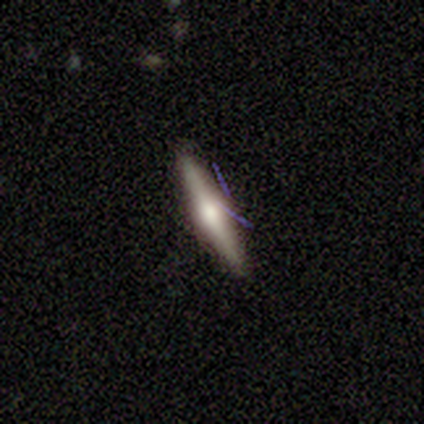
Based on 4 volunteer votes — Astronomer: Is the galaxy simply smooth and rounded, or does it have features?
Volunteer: featured or disk — 75%.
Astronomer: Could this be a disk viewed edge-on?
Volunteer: yes — 100%.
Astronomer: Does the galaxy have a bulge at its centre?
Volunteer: rounded — 100%.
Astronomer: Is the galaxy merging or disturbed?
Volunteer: none — 100%.